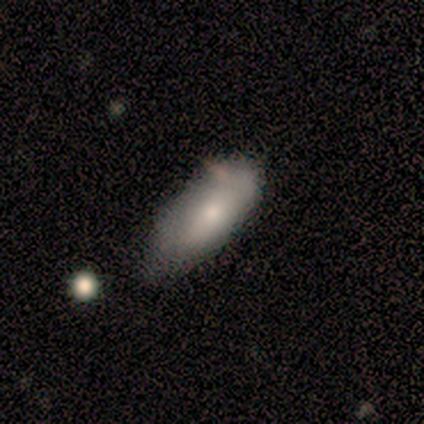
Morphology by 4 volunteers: Smooth or featured? smooth (100%)
How rounded? in between (100%)
Merging? none (50%)